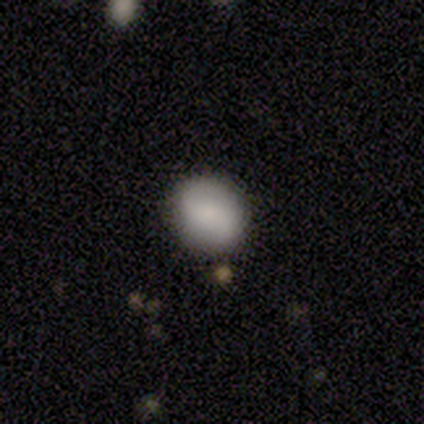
Volunteers were most divided on "how rounded": round: 67%, in between: 33%, cigar-shaped: 0%. More confident: merging — none (100%); smooth or featured — smooth (75%).